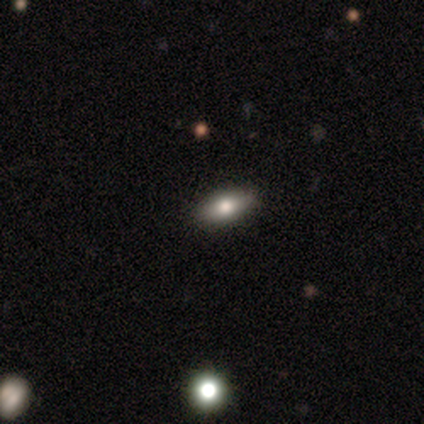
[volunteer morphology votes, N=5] This is clearly a smooth galaxy (80%). How rounded: clearly in between (100%). Merging: clearly none (100%).